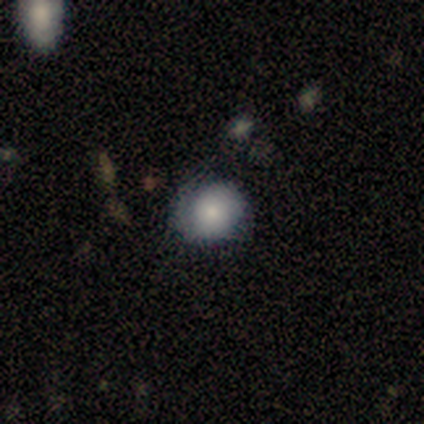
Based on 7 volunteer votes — Morphology: type=smooth (86%); roundness=in between (67%); merging=none (67%).